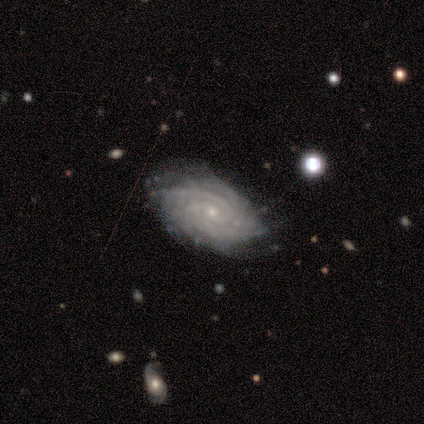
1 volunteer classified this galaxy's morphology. Q: Smooth or featured?
A: featured or disk (100%)
Q: Edge-on disk?
A: no (100%)
Q: Bar?
A: no (100%)
Q: Spiral arms?
A: yes (100%)
Q: Spiral winding?
A: medium (100%)
Q: Spiral arm count?
A: 2 (100%)
Q: Bulge size?
A: moderate (100%)
Q: Merging?
A: none (100%)